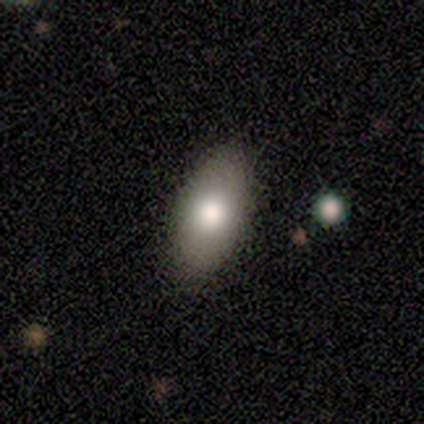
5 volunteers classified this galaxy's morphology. A smooth galaxy with no disk features (80%) that is in between round and cigar-shaped (100%).

Vote fractions:
- Smooth or featured? smooth: 80% / star or artifact: 20% / featured or disk: 0%
- How rounded? in between: 100% / round: 0% / cigar-shaped: 0%
- Merging? none: 100% / minor disturbance: 0% / major disturbance: 0% / merger: 0%